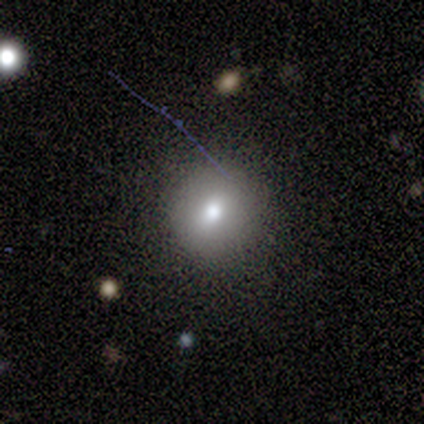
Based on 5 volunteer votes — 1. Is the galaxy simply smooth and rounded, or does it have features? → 100% smooth, 0% featured or disk, 0% star or artifact.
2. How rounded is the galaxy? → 100% round, 0% in between, 0% cigar-shaped.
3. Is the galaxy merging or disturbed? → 100% none, 0% minor disturbance, 0% major disturbance, 0% merger.